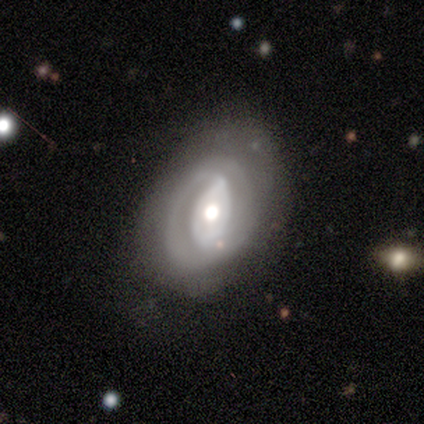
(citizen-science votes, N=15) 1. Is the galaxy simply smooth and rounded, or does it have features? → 73% featured or disk, 27% smooth, 0% star or artifact.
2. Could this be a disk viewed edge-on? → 91% no, 9% yes.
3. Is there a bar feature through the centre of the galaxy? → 40% strong (tied), 40% no (tied), 20% weak.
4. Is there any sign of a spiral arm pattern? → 90% yes, 10% no.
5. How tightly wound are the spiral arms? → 56% tight, 44% medium, 0% loose.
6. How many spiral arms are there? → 67% can't tell, 22% 2, 11% 1, 0% 3, 0% 4, 0% more than 4.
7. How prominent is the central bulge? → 60% moderate, 20% large, 20% small, 0% dominant, 0% none.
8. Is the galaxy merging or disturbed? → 60% none, 27% minor disturbance, 13% major disturbance, 0% merger.